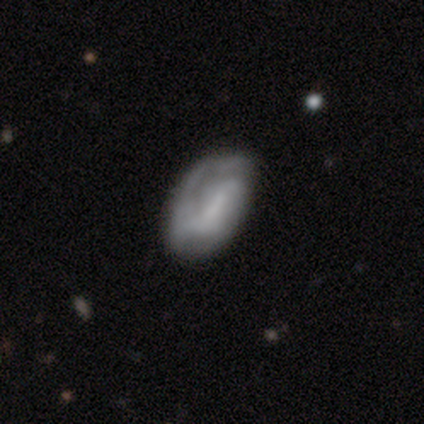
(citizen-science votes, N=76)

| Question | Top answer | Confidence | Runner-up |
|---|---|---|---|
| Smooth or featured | featured or disk | 57% | smooth (41%) |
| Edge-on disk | no | 98% | yes (2%) |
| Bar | no | 38% | weak (33%) |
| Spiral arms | yes | 79% | no (21%) |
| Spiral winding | medium | 48% | tight (30%) |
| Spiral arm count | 2 | 42% | can't tell (36%) |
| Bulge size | none | 55% | small (24%) |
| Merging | none | 34% | minor disturbance (22%) |